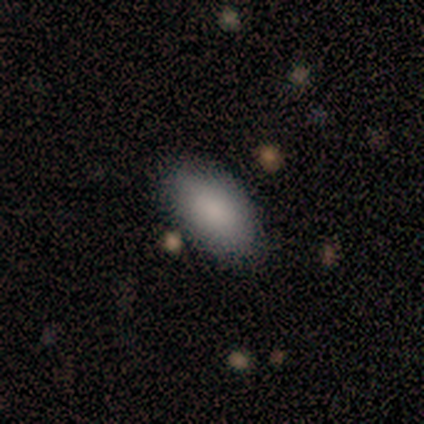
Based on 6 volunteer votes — Q: Smooth or featured?
A: smooth (83%); runner-up: star or artifact (17%)
Q: How rounded?
A: in between (100%)
Q: Merging?
A: none (100%)